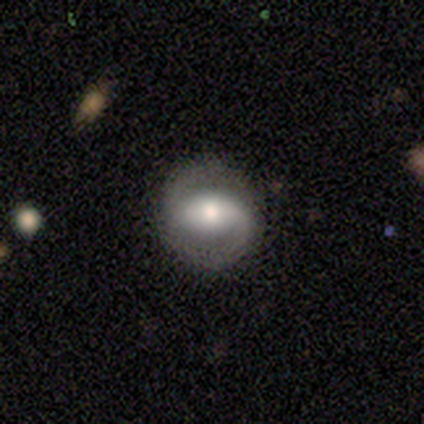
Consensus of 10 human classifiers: featured or disk 70%, star or artifact 20%, smooth 10%. Down the decision tree: edge-on disk — no (100%); bar — strong (43%); spiral arms — yes (100%); spiral arm count — 2 (86%); spiral winding — tight (43%, tied with loose); bulge size — large (43%, tied with moderate); merging — none (88%).